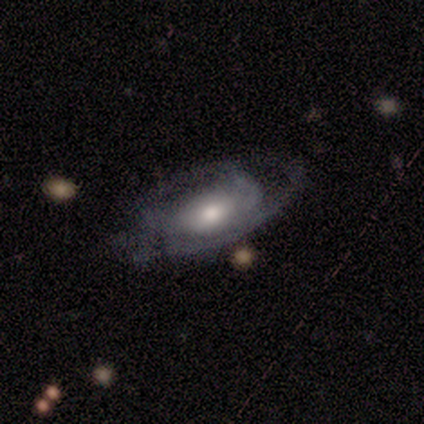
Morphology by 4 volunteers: Smooth or featured: featured or disk — 75% (smooth — 25%)
Edge-on disk: no — 67% (yes — 33%)
Bar: weak — 50% (tied with no — 50%)
Spiral arms: no — 100%
Bulge size: moderate — 100%
Merging: none — 50% (tied with major disturbance — 50%)